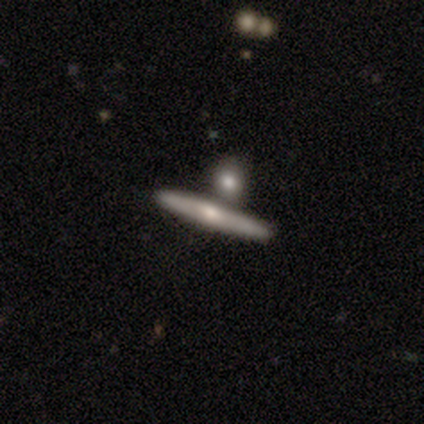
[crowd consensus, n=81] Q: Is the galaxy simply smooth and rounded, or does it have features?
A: featured or disk — 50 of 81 (62%).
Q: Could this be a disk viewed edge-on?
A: yes — 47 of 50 (94%).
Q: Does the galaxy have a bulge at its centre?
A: rounded — 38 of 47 (81%).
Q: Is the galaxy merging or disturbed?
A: none — 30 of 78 (38%).